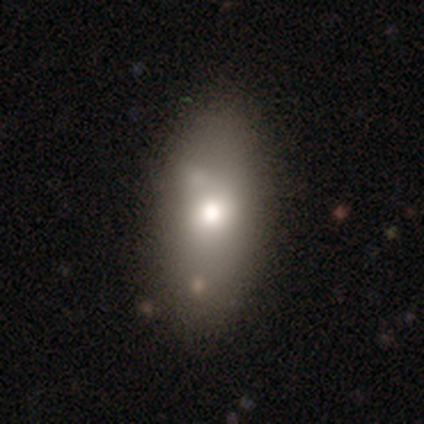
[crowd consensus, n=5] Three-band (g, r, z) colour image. It shows a smooth galaxy with no disk features (40%, tied with featured or disk) that is in between round and cigar-shaped (100%). Merging: none (50%, tied with minor disturbance).